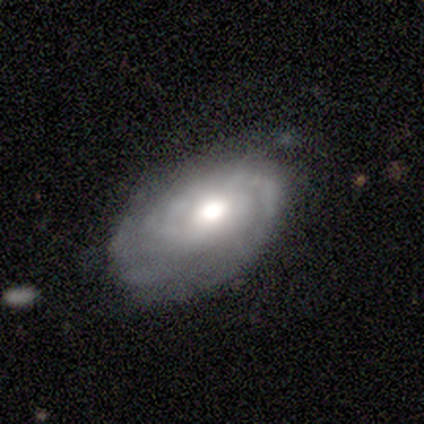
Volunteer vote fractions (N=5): This is clearly a featured or disk galaxy (80%). It is clearly not viewed edge-on (100%). Bar: clearly no (100%). Spiral arm pattern: likely yes (75%). Spiral arm count: likely can't tell (67%). Spiral winding: clearly tight (100%). Central bulge: possibly large (50%, tied with moderate). Merging: likely none (60%).